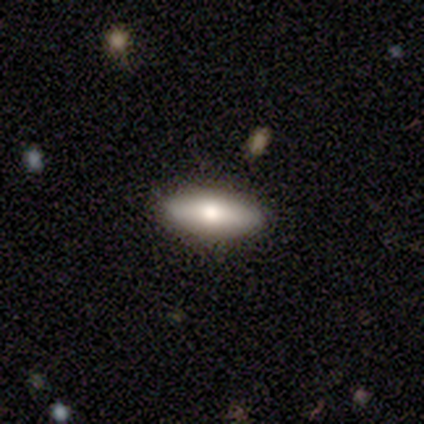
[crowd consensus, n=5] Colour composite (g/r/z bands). It shows a featured or disk galaxy (60%) viewed edge-on (67%) with no central bulge (50%, tied with rounded). Merging: none (60%).